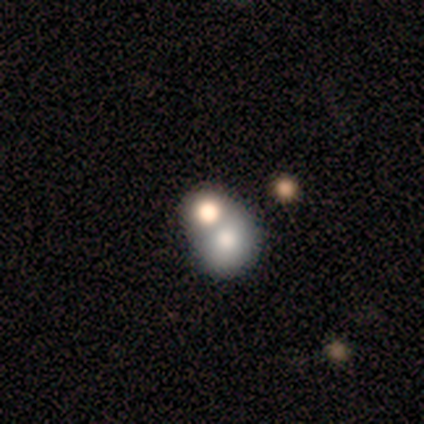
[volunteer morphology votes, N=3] A smooth galaxy with no disk features (100%) that is round (67%). Merging: none (33%, tied with major disturbance and merger).